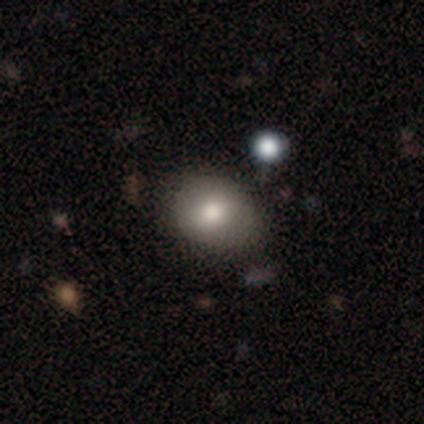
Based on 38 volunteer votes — Smooth or featured: smooth — 79% (featured or disk — 11%)
How rounded: round — 50% (tied with in between — 50%)
Merging: none — 79% (minor disturbance — 15%)